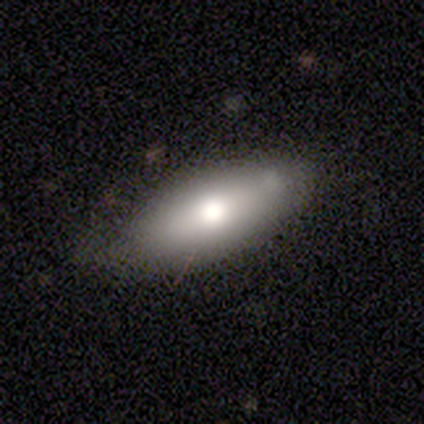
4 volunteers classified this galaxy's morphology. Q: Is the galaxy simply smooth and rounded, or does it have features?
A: smooth — 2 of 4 (50%, tied with star or artifact).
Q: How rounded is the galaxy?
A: in between — 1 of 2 (50%, tied with cigar-shaped).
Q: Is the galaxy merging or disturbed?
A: none — 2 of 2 (100%).